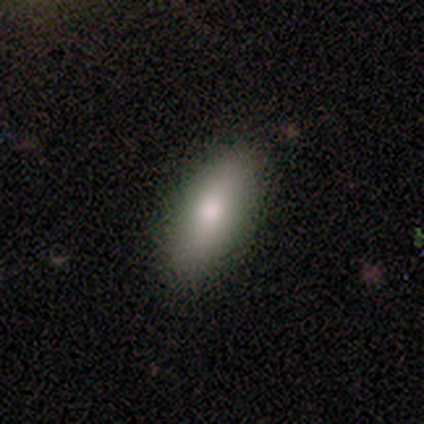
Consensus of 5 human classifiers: A smooth galaxy with no disk features (80%) that is in between round and cigar-shaped (100%).

Vote fractions:
- Smooth or featured? smooth: 80% / star or artifact: 20% / featured or disk: 0%
- How rounded? in between: 100% / round: 0% / cigar-shaped: 0%
- Merging? none: 100% / minor disturbance: 0% / major disturbance: 0% / merger: 0%